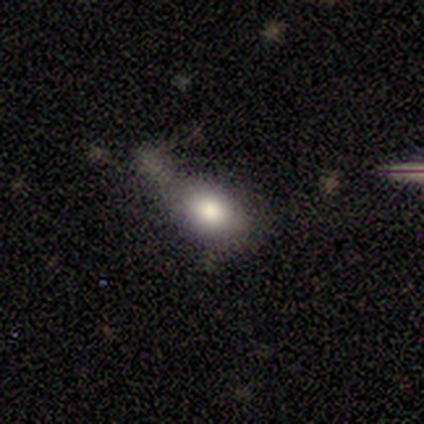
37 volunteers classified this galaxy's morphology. This appears to be a smooth galaxy with no disk features (68%) that is in between round and cigar-shaped (88%). Merging: minor disturbance (50%).